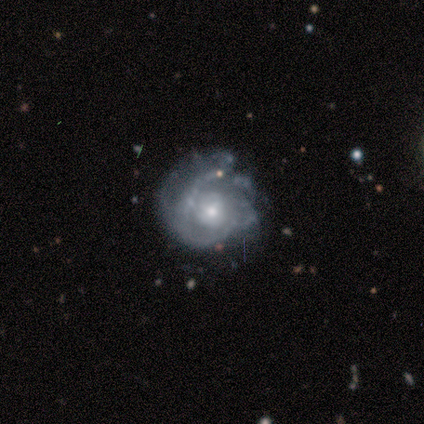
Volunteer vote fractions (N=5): Smooth or featured? 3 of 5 (60%) said featured or disk. Edge-on disk? 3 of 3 (100%) said no. Bar? 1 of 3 (33%, tied with weak and no) said strong. Spiral arms? 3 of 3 (100%) said yes. Spiral winding? 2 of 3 (67%) said medium. Spiral arm count? 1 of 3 (33%, tied with 2 and can't tell) said 1. Bulge size? 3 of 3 (100%) said moderate. Merging? 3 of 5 (60%) said none.